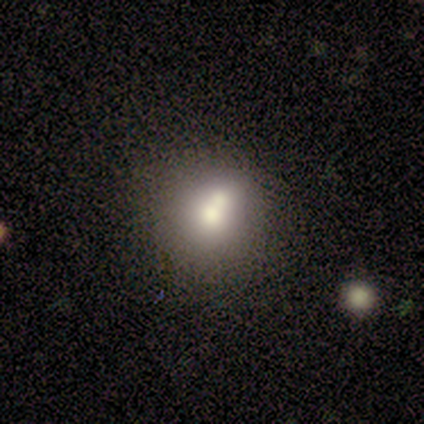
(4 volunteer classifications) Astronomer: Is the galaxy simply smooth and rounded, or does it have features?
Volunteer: smooth — 100%.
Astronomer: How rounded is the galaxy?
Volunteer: round — 100%.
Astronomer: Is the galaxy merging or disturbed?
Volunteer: merger — 50%.